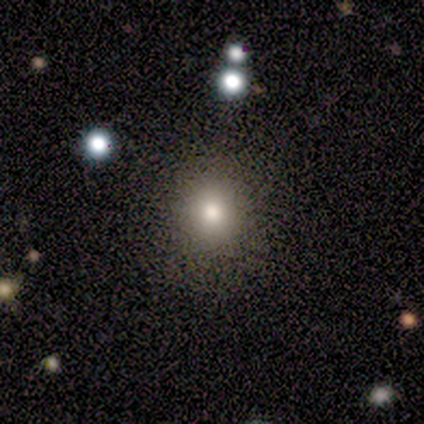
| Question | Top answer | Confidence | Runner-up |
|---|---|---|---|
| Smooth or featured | smooth | 77% | star or artifact (20%) |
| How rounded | round | 91% | in between (9%) |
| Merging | none | 89% | minor disturbance (6%) |